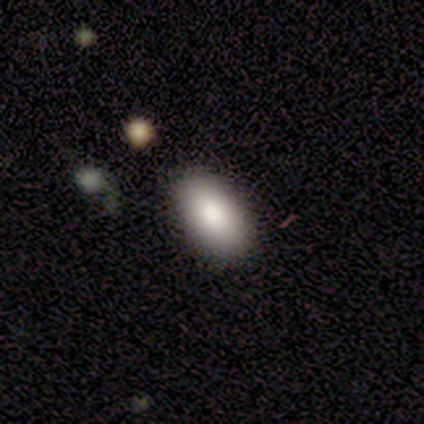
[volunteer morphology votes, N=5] smooth 100%, featured or disk 0%, star or artifact 0%. Down the decision tree: how rounded — in between (80%); merging — none (100%).